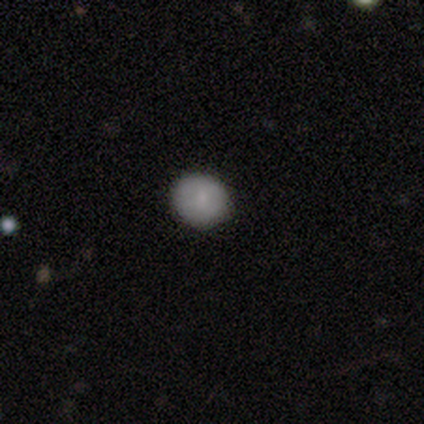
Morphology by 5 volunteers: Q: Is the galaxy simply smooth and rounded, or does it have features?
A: smooth — 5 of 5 (100%).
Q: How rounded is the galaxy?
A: round — 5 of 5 (100%).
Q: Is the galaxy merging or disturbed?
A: none — 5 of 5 (100%).